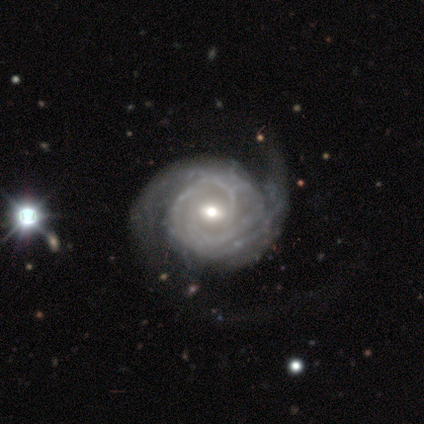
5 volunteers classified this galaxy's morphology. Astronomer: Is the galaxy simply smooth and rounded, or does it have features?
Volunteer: featured or disk — 100%.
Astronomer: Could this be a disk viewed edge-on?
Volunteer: no — 100%.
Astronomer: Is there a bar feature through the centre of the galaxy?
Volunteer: weak — 60% (runner-up: no, 40%).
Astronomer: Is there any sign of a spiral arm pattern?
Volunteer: yes — 100%.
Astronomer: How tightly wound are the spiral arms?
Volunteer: medium — 60%.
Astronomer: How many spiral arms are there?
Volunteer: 2 — 80%.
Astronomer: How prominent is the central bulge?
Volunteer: moderate — 80%.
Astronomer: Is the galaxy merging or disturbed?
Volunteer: none — 80%.